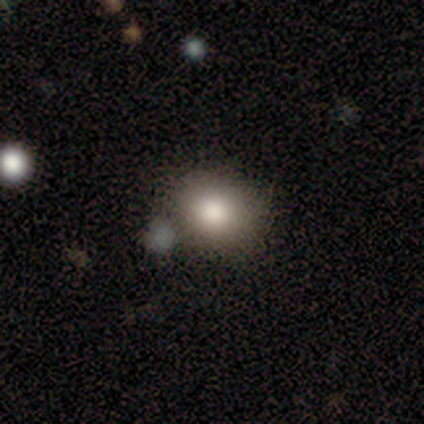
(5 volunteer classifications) smooth-or-featured: smooth: 60% | featured or disk: 20% | star or artifact: 20%
  how-rounded: round: 67% | in between: 33% | cigar-shaped: 0%
  merging: none: 100% | minor disturbance: 0% | major disturbance: 0% | merger: 0%